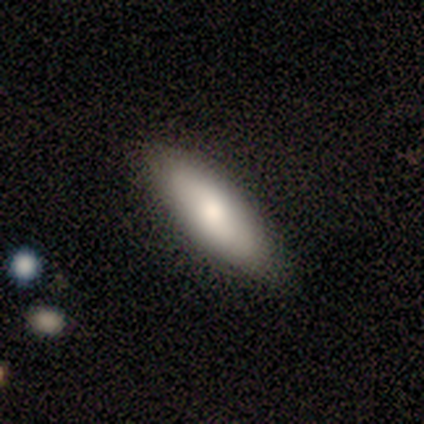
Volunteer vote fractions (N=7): smooth-or-featured: smooth: 86% | featured or disk: 14% | star or artifact: 0%
  how-rounded: in between: 50% (tied) | cigar-shaped: 50% (tied) | round: 0%
  merging: none: 86% | minor disturbance: 14% | major disturbance: 0% | merger: 0%